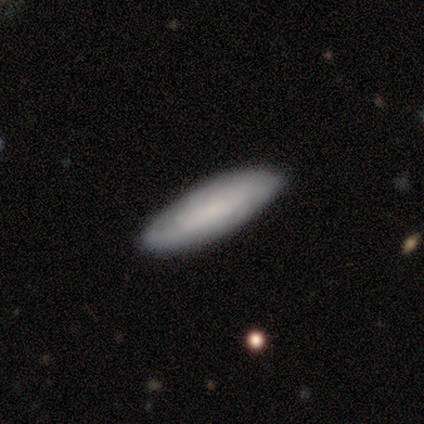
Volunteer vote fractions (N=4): This appears to be a smooth galaxy with no disk features (75%) that is cigar-shaped (67%). Merging: none (100%).